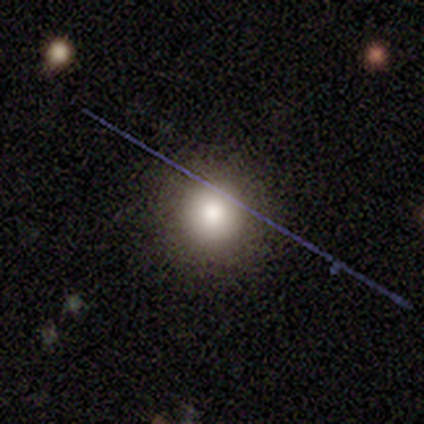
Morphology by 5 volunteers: Smooth or featured: smooth — 80% (featured or disk — 20%)
How rounded: round — 100%
Merging: none — 80% (minor disturbance — 20%)